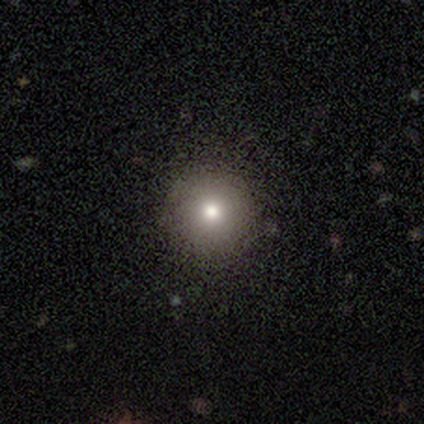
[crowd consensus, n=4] Smooth or featured? 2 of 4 (50%) said smooth. How rounded? 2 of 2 (100%) said round. Merging? 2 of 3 (67%) said none.